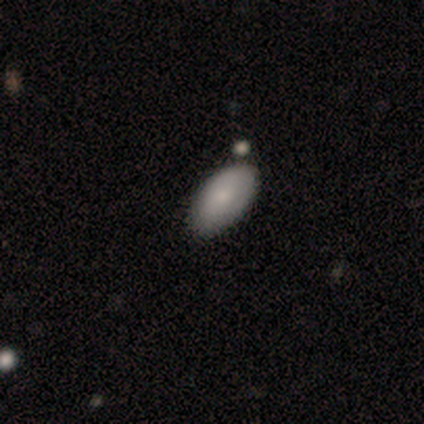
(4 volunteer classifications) A smooth galaxy with no disk features (75%) that is in between round and cigar-shaped (100%). Merging: minor disturbance (67%).